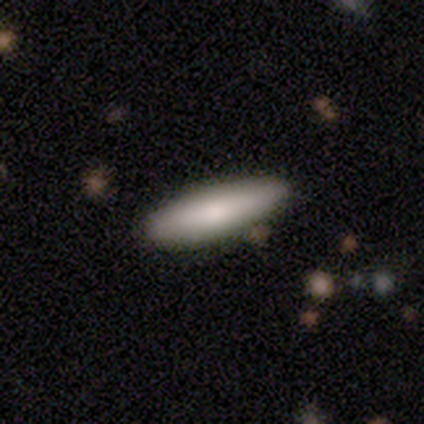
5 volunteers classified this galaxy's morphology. This appears to be a smooth galaxy with no disk features (80%) that is cigar-shaped (75%). Merging: none (100%).